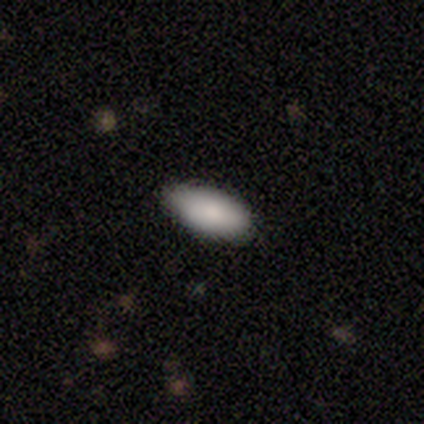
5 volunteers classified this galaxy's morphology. Smooth or featured: smooth — 100%
How rounded: in between — 100%
Merging: none — 80% (minor disturbance — 20%)